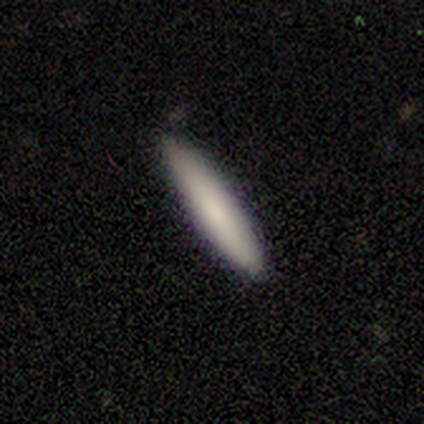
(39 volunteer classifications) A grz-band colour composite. It shows a smooth galaxy with no disk features (85%) that is cigar-shaped (88%). Merging: none (86%).